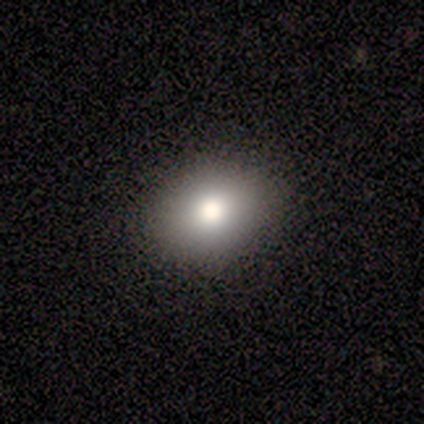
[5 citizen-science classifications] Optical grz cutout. It shows a smooth galaxy with no disk features (100%) that is round (60%). Merging: none (100%).